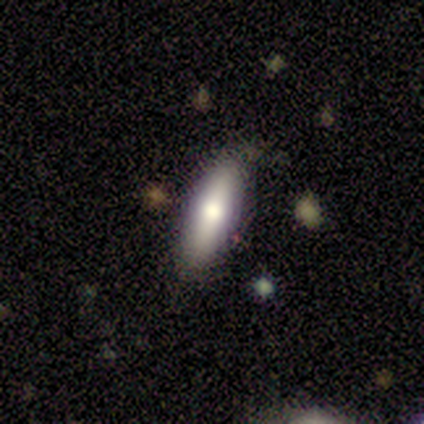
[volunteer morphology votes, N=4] smooth 75%, featured or disk 25%, star or artifact 0%. Down the decision tree: how rounded — cigar-shaped (67%); merging — none (75%).